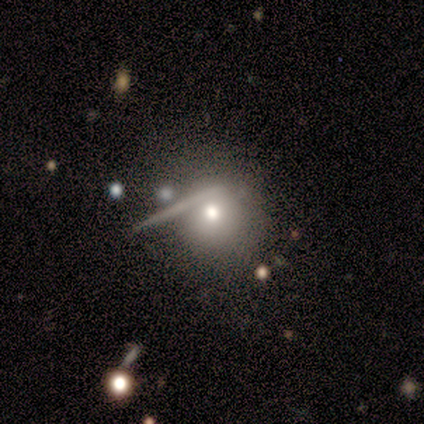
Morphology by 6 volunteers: This is likely a smooth galaxy (67%). How rounded: likely round (75%). Merging: likely none (60%).